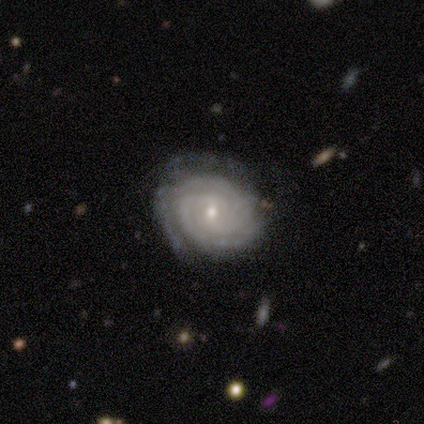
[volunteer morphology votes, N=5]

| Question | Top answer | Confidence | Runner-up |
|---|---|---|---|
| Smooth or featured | featured or disk | 100% | — |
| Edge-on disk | no | 100% | — |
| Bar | no | 60% | weak (40%) |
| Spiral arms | yes | 100% | — |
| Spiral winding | tight | 100% | — |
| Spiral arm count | can't tell | 60% | 2 (20%) |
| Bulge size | small | 60% | moderate (40%) |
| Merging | none | 100% | — |